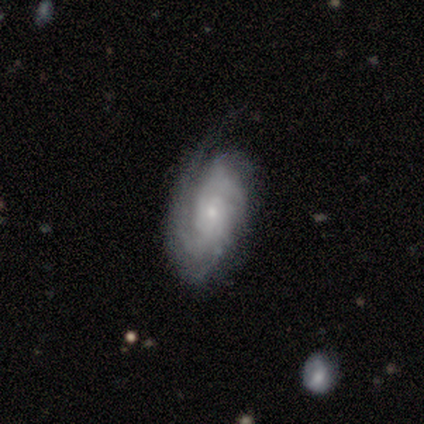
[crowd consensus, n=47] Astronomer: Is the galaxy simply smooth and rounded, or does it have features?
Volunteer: featured or disk — 72%.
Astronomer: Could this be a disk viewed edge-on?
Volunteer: no — 91%.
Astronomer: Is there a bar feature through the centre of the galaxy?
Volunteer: no — 84%.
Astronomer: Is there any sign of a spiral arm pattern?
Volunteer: yes — 90%.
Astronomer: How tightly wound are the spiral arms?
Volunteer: tight — 68%.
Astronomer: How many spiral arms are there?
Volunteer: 3 — 32% (runner-up: can't tell, 29%).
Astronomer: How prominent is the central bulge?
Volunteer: small — 71%.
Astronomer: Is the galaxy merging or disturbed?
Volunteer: none — 57%.